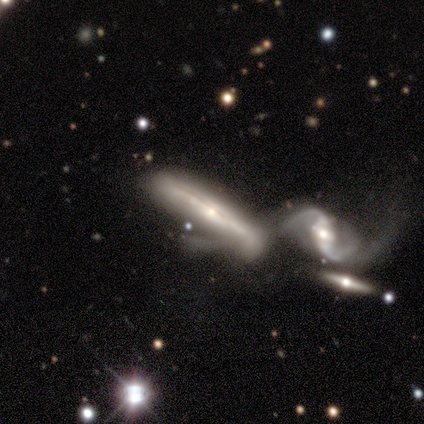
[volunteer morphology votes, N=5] Q: Smooth or featured?
A: featured or disk (100%)
Q: Edge-on disk?
A: yes (100%)
Q: Edge-on bulge?
A: rounded (60%); runner-up: none (40%)
Q: Merging?
A: major disturbance (60%); runner-up: none (20%)